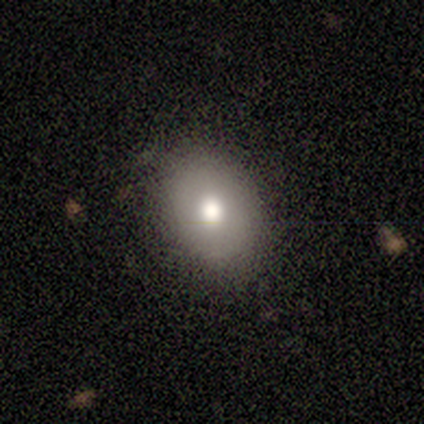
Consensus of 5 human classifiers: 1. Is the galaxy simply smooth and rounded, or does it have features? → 60% smooth, 40% featured or disk, 0% star or artifact.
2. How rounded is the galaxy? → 67% in between, 33% round, 0% cigar-shaped.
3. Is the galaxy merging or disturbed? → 100% none, 0% minor disturbance, 0% major disturbance, 0% merger.